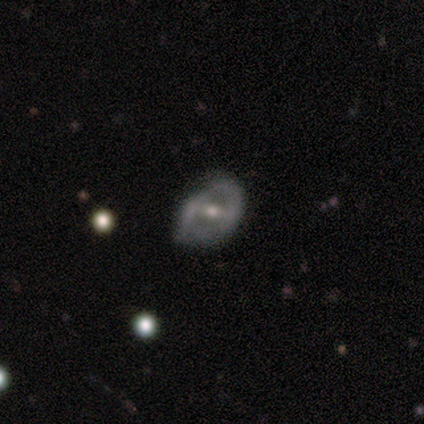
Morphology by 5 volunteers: smooth_or_featured: featured or disk (p=0.60) [alt: smooth p=0.40]
disk_edge_on: no (p=1.00)
bar: no (p=0.67) [alt: weak p=0.33]
has_spiral_arms: no (p=0.67) [alt: yes p=0.33]
bulge_size: moderate (p=1.00)
merging: minor disturbance (p=0.40) [alt: none p=0.20]